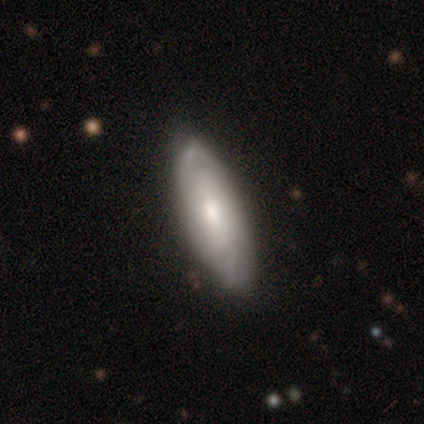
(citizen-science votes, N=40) This appears to be a featured or disk galaxy (68%) with no bar (56%), tight (58%) spiral arms (76%) and a moderate central bulge (48%). Merging: none (67%).